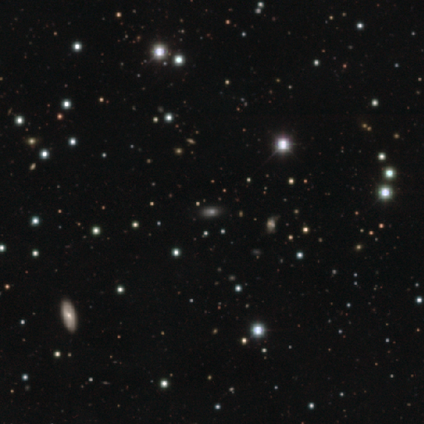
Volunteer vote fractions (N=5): Q: Smooth or featured?
A: smooth (60%); runner-up: featured or disk (20%)
Q: How rounded?
A: in between (67%); runner-up: cigar-shaped (33%)
Q: Merging?
A: none (75%); runner-up: minor disturbance (25%)